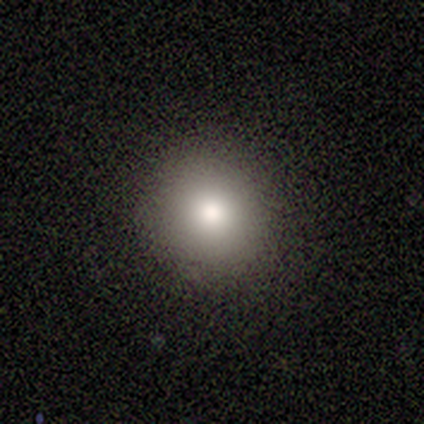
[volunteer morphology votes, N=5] Q: Smooth or featured?
A: smooth (100%)
Q: How rounded?
A: round (100%)
Q: Merging?
A: none (100%)